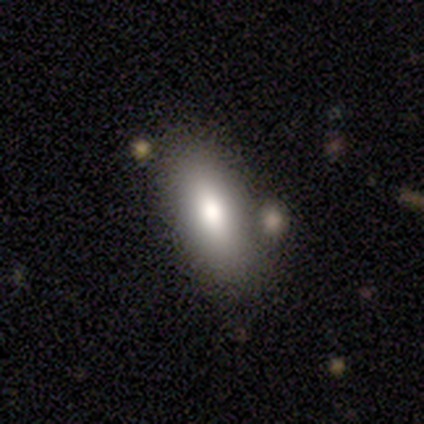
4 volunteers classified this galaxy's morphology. Volunteers were most divided on "merging": none: 50%, minor disturbance: 25%, merger: 25%, major disturbance: 0%. More confident: smooth or featured — smooth (100%); how rounded — in between (100%).